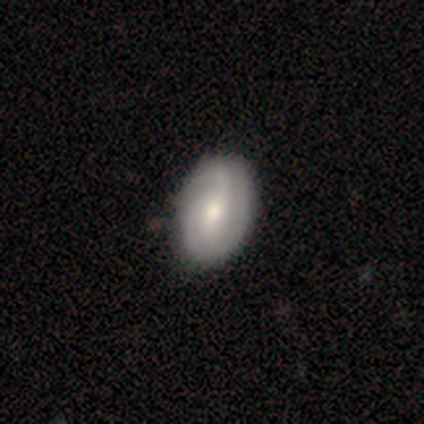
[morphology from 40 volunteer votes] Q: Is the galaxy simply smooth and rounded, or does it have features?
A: featured or disk — 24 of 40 (60%).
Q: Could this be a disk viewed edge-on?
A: no — 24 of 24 (100%).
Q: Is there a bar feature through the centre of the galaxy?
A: no — 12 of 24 (50%).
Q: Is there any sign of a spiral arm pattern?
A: yes — 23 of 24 (96%).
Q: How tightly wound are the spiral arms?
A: tight — 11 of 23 (48%).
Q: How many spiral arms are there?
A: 2 — 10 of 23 (43%).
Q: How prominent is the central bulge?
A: moderate — 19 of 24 (79%).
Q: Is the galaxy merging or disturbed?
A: none — 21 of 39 (54%).